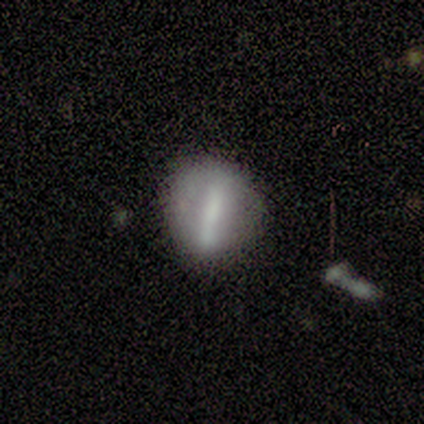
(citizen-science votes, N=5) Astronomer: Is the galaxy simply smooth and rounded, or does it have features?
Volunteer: featured or disk — 80%.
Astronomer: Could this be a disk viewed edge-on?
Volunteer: no — 100%.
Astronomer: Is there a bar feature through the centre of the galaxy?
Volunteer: strong — 50%.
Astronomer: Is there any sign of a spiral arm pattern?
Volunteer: no — 100%.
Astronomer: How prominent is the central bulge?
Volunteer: moderate — 50%, tied with none at 50%.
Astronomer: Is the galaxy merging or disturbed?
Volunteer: none — 100%.